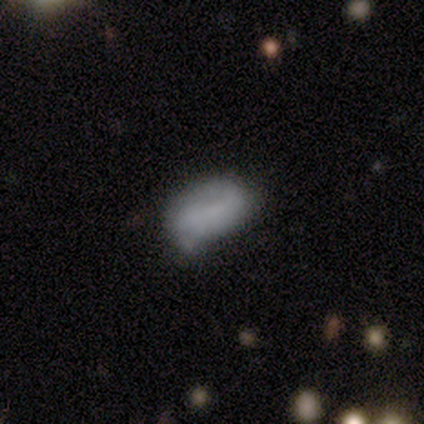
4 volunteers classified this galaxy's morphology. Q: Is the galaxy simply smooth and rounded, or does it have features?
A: smooth — 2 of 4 (50%, tied with star or artifact).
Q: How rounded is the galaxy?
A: in between — 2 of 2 (100%).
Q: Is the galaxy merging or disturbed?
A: none — 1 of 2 (50%, tied with minor disturbance).